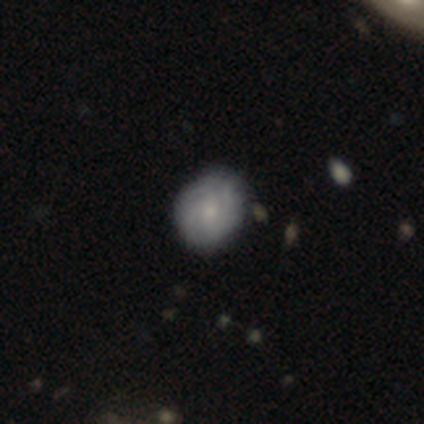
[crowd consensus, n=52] A featured or disk galaxy (65%) with no bar (76%), tight (64%) spiral arms (76%) and a small central bulge (61%). Merging: none (65%).